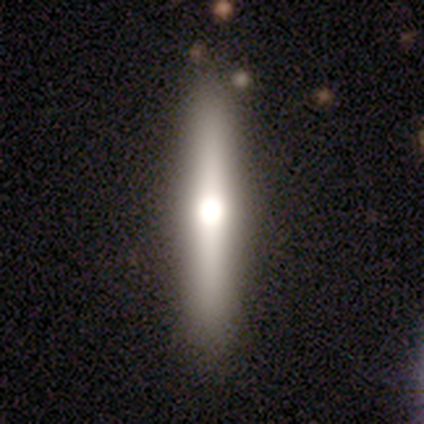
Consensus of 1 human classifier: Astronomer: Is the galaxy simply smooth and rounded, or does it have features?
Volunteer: smooth — 100%.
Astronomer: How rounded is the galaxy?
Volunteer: in between — 100%.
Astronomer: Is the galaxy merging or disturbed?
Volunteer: none — 100%.